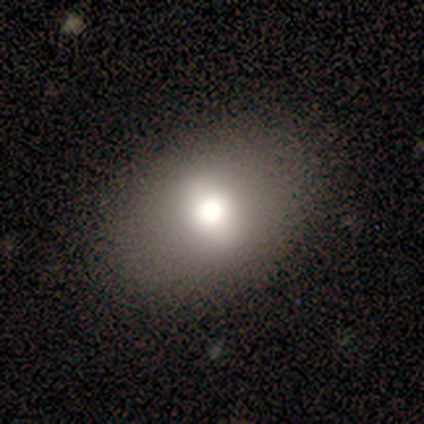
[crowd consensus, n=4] A smooth galaxy with no disk features (100%) that is in between round and cigar-shaped (75%). Merging: none (100%).